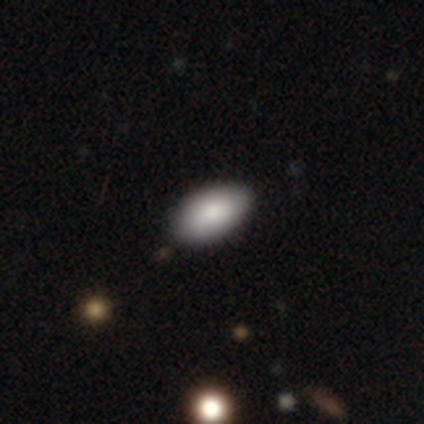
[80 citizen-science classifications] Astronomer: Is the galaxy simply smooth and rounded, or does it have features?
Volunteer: smooth — 88%.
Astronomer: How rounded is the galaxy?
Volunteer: in between — 99%.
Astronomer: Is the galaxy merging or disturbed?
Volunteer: none — 42%.